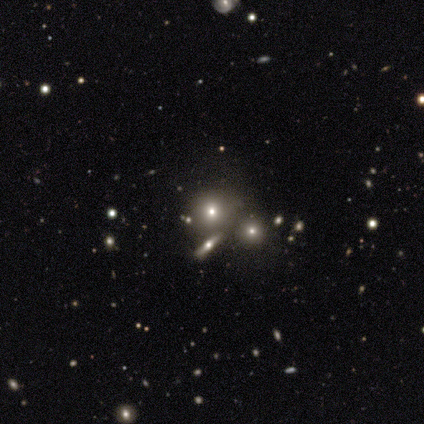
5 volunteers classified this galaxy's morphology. Smooth or featured? featured or disk (60%)
Edge-on disk? no (67%)
Bar? no (100%)
Spiral arms? no (100%)
Bulge size? large (50%, tied with moderate)
Merging? none (75%)